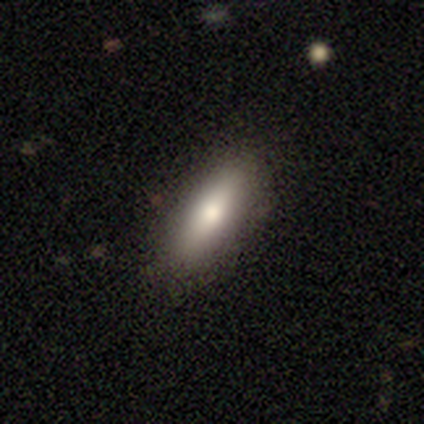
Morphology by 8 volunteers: This is likely a smooth galaxy (75%). How rounded: likely cigar-shaped (67%). Merging: clearly none (88%).